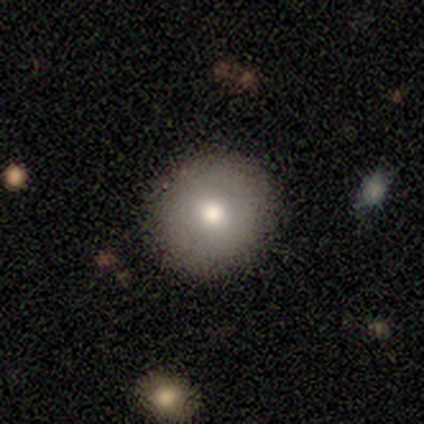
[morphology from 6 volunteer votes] Smooth or featured? 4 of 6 (67%) said featured or disk. Edge-on disk? 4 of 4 (100%) said no. Bar? 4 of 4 (100%) said no. Spiral arms? 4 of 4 (100%) said no. Bulge size? 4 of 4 (100%) said moderate. Merging? 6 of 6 (100%) said none.